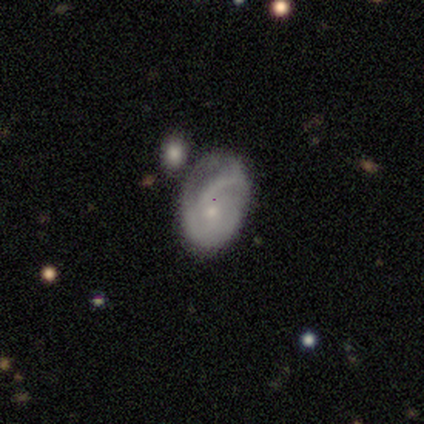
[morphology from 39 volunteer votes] smooth-or-featured: featured or disk: 67% | smooth: 31% | star or artifact: 3%
  disk-edge-on: no: 92% | yes: 8%
    bar: no: 71% | weak: 25% | strong: 4%
    has-spiral-arms: yes: 79% | no: 21%
      spiral-winding: medium: 58% | tight: 26% | loose: 16%
      spiral-arm-count: can't tell: 37% | 2: 32% | 1: 21% | 3: 11% | 4: 0% | more than 4: 0%
    bulge-size: small: 75% | moderate: 21% | large: 4% | dominant: 0% | none: 0%
  merging: none: 53% | minor disturbance: 18% | merger: 16% | major disturbance: 13%